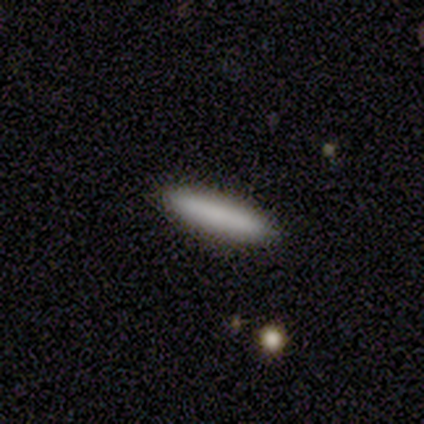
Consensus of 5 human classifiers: A smooth galaxy with no disk features (100%) that is cigar-shaped (100%).

Vote fractions:
- Smooth or featured? smooth: 100% / featured or disk: 0% / star or artifact: 0%
- How rounded? cigar-shaped: 100% / round: 0% / in between: 0%
- Merging? none: 100% / minor disturbance: 0% / major disturbance: 0% / merger: 0%